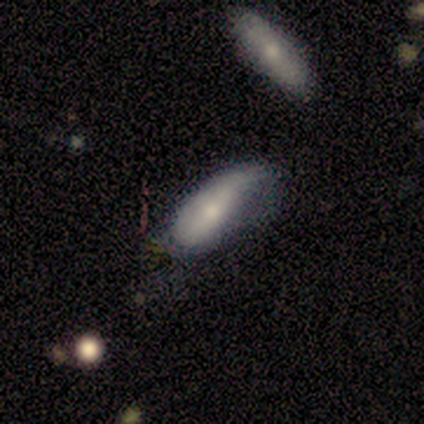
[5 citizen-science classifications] Smooth or featured?
  - featured or disk: 60% *
  - smooth: 40%
  - star or artifact: 0%
Edge-on disk?
  - no: 100% *
  - yes: 0%
Bar?
  - no: 67% *
  - weak: 33%
  - strong: 0%
Spiral arms?
  - yes: 100% *
  - no: 0%
Spiral winding?
  - tight: 33% * (tied)
  - medium: 33% * (tied)
  - loose: 33% * (tied)
Spiral arm count?
  - 1: 67% *
  - 2: 33%
  - 3: 0%
  - 4: 0%
  - more than 4: 0%
  - can't tell: 0%
Bulge size?
  - moderate: 33% * (tied)
  - small: 33% * (tied)
  - none: 33% * (tied)
  - dominant: 0%
  - large: 0%
Merging?
  - none: 60% *
  - minor disturbance: 20%
  - major disturbance: 20%
  - merger: 0%